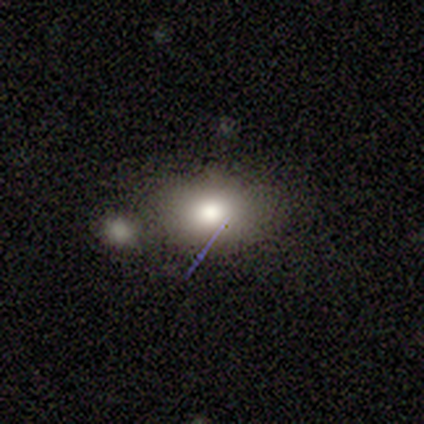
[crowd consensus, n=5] A smooth galaxy with no disk features (40%, tied with featured or disk) that is round (50%, tied with in between).

Vote fractions:
- Smooth or featured? smooth: 40% (tied) / featured or disk: 40% (tied) / star or artifact: 20%
- How rounded? round: 50% (tied) / in between: 50% (tied) / cigar-shaped: 0%
- Merging? none: 50% / major disturbance: 25% / merger: 25% / minor disturbance: 0%